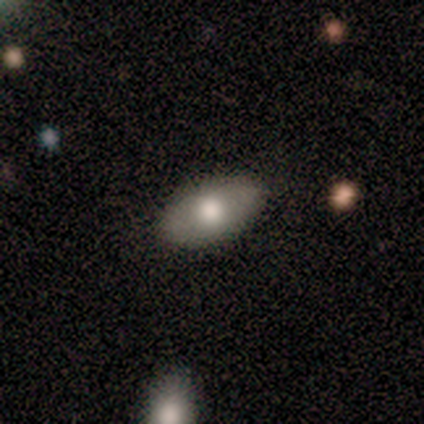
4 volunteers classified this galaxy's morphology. This is possibly a smooth galaxy (50%, tied with featured or disk). How rounded: clearly in between (100%). Merging: likely none (75%).